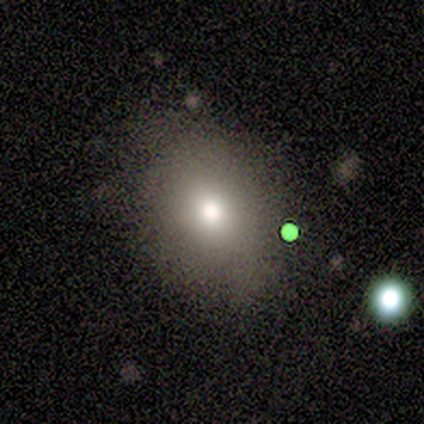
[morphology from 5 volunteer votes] Overall: smooth (60%; featured or disk 20%). How rounded: in between (100%). Merging: none (100%).